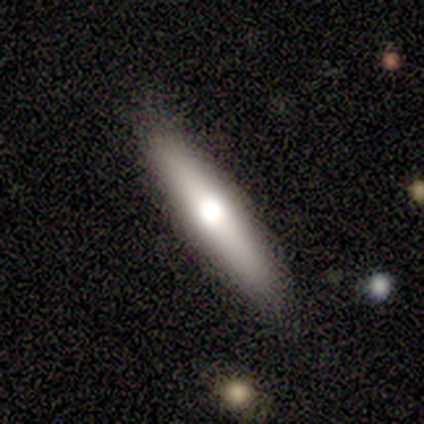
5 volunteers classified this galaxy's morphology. type=smooth (60%); roundness=cigar-shaped (67%); merging=none (100%).